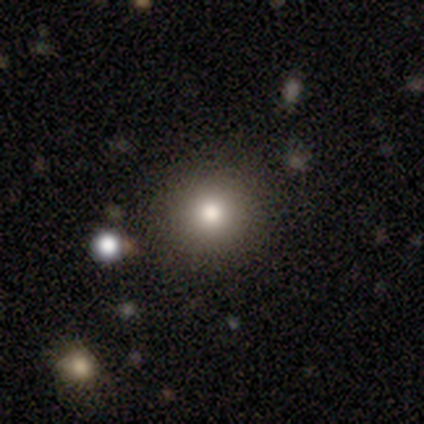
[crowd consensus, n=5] Smooth or featured? 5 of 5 (100%) said smooth. How rounded? 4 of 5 (80%) said round. Merging? 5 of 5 (100%) said none.